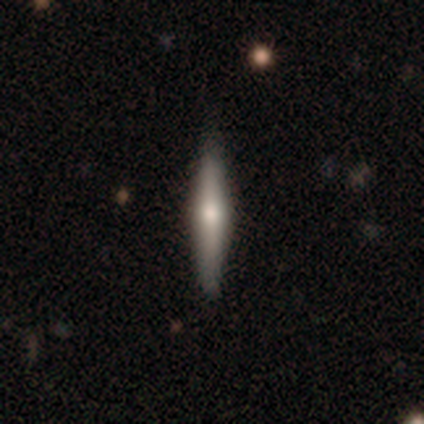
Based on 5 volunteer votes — Smooth or featured?
  - smooth: 80% *
  - featured or disk: 20%
  - star or artifact: 0%
How rounded?
  - cigar-shaped: 100% *
  - round: 0%
  - in between: 0%
Merging?
  - none: 100% *
  - minor disturbance: 0%
  - major disturbance: 0%
  - merger: 0%